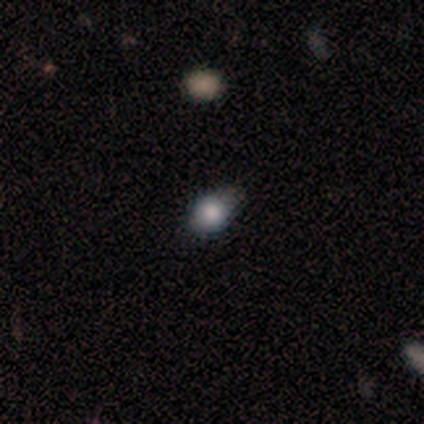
Smooth or featured: smooth — 67% (star or artifact — 21%)
How rounded: round — 50% (tied with in between — 50%)
Merging: minor disturbance — 45% (none — 42%)